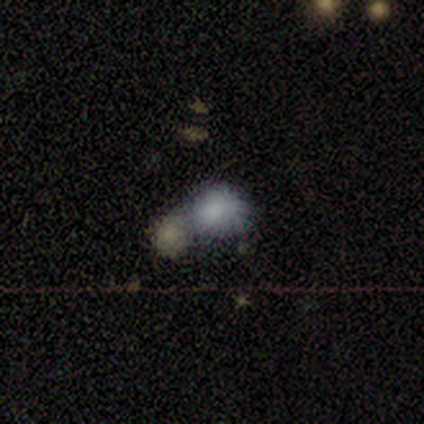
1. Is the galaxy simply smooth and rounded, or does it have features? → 68% smooth, 20% featured or disk, 12% star or artifact.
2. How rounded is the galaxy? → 52% round, 44% in between, 4% cigar-shaped.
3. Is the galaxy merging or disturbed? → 51% merger, 40% none, 9% minor disturbance, 0% major disturbance.